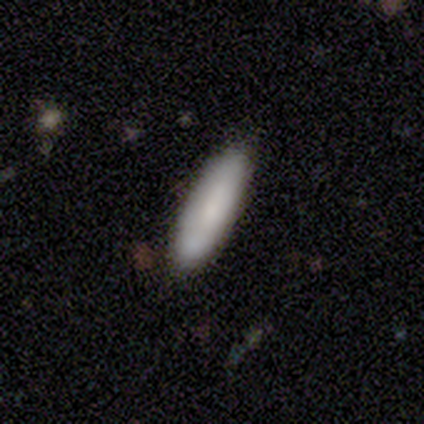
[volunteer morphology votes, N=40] A smooth galaxy with no disk features (85%) that is cigar-shaped (53%). Merging: none (81%).